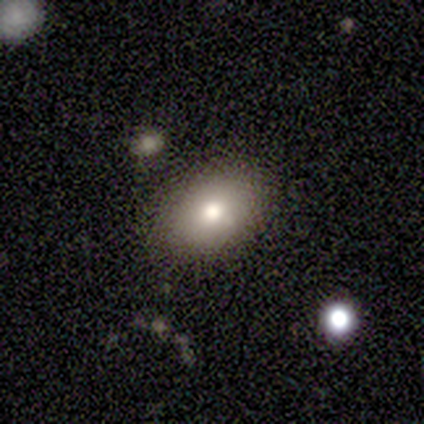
A smooth galaxy with no disk features (100%) that is in between round and cigar-shaped (80%).

Vote fractions:
- Smooth or featured? smooth: 100% / featured or disk: 0% / star or artifact: 0%
- How rounded? in between: 80% / round: 20% / cigar-shaped: 0%
- Merging? none: 100% / minor disturbance: 0% / major disturbance: 0% / merger: 0%